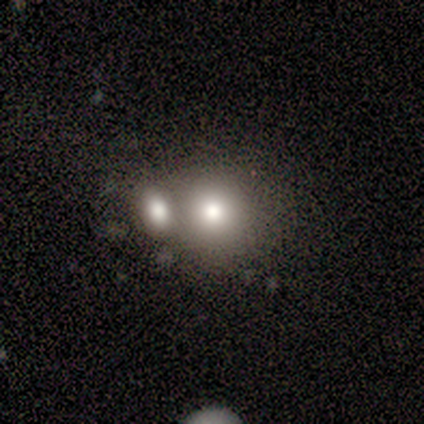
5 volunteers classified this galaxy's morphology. Overall: smooth (60%; featured or disk 40%). How rounded: round (100%). Merging: none (60%; merger 40%).